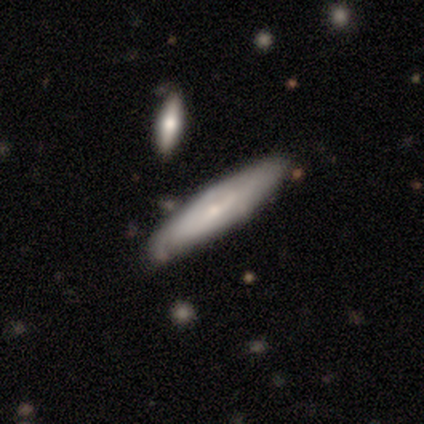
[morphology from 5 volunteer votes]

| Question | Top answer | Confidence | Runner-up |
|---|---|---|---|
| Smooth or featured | featured or disk | 100% | — |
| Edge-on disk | yes | 80% | no (20%) |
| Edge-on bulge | none | 50% | tied: rounded (50%) |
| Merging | none | 40% | tied: minor disturbance (40%) |